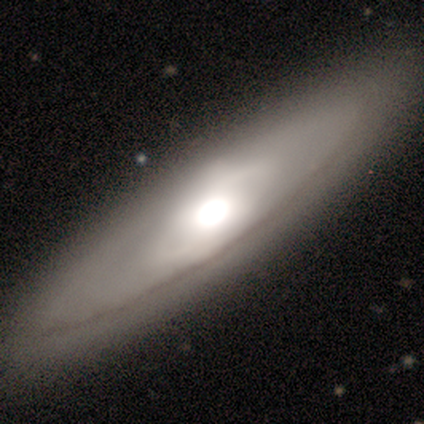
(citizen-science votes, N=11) Overall: featured or disk (91%). Edge-on disk: no (60%; yes 40%). Bar: no (83%). Spiral arms: no (100%). Bulge size: large (50%, tied with moderate). Merging: none (73%).